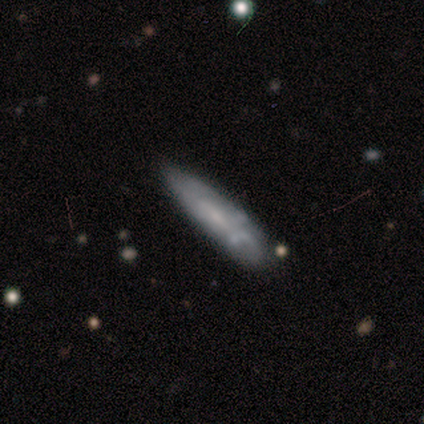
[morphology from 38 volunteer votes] Smooth or featured?
  - smooth: 55% *
  - featured or disk: 37%
  - star or artifact: 8%
How rounded?
  - cigar-shaped: 71% *
  - in between: 24%
  - round: 5%
Merging?
  - none: 57% *
  - minor disturbance: 34%
  - merger: 6%
  - major disturbance: 3%